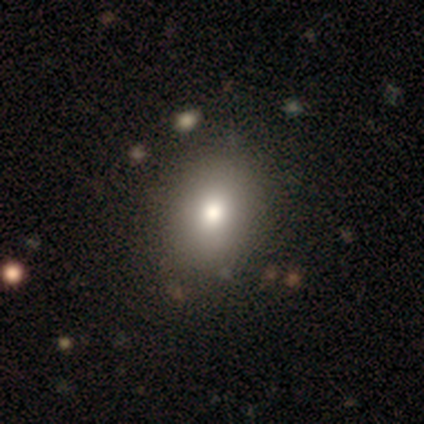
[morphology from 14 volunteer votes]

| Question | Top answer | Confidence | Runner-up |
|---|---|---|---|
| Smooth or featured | smooth | 86% | featured or disk (7%) |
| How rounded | round | 58% | in between (42%) |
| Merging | none | 85% | minor disturbance (15%) |